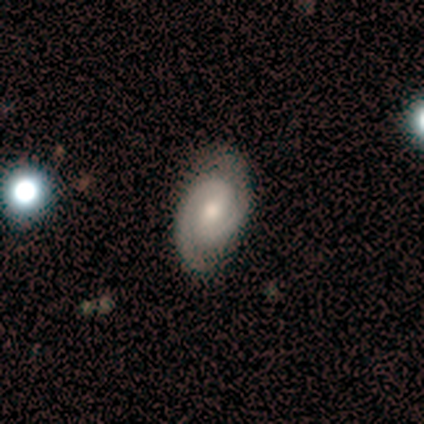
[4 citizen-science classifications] Smooth or featured: featured or disk — 75% (star or artifact — 25%)
Edge-on disk: no — 100%
Bar: strong — 33% (tied with weak — 33%; no — 33%)
Spiral arms: yes — 67% (no — 33%)
Spiral winding: tight — 50% (tied with medium — 50%)
Spiral arm count: 2 — 100%
Bulge size: moderate — 33% (tied with small — 33%; none — 33%)
Merging: none — 100%